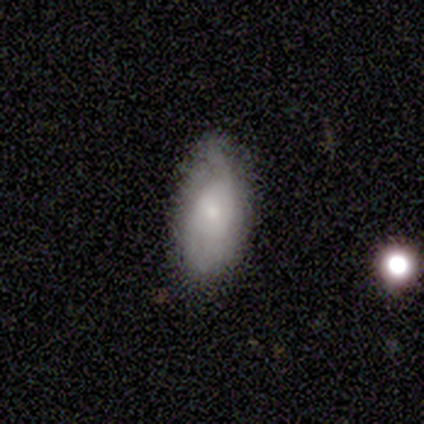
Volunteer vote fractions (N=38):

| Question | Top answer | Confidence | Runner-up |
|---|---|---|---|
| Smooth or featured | smooth | 50% | tied: featured or disk (50%) |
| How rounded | in between | 89% | round (5%) |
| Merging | none | 71% | minor disturbance (21%) |